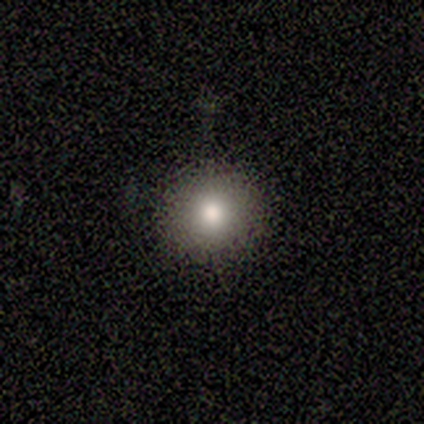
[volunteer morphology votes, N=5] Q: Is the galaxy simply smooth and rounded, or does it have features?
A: smooth — 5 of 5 (100%).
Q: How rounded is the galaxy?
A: round — 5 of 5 (100%).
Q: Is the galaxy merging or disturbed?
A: none — 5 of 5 (100%).